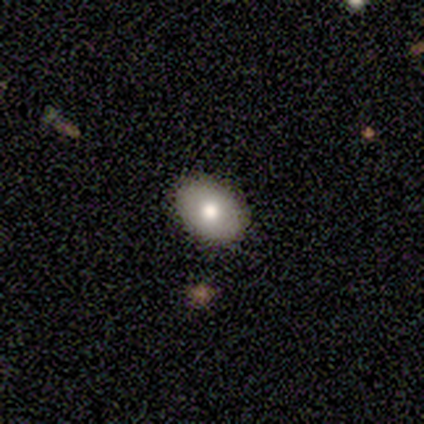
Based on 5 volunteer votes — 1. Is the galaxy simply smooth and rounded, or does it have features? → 60% smooth, 40% featured or disk, 0% star or artifact.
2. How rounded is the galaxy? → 67% in between, 33% round, 0% cigar-shaped.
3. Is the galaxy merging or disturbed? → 100% none, 0% minor disturbance, 0% major disturbance, 0% merger.